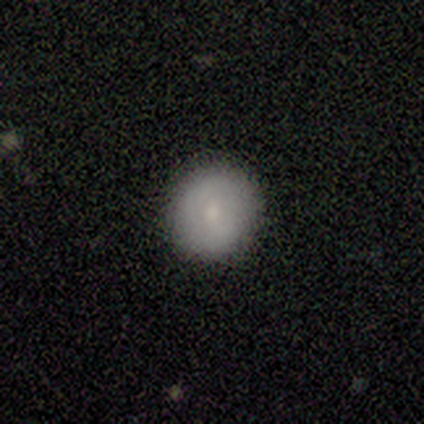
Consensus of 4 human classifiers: Overall: smooth (100%). How rounded: round (100%). Merging: none (50%; minor disturbance 25%).